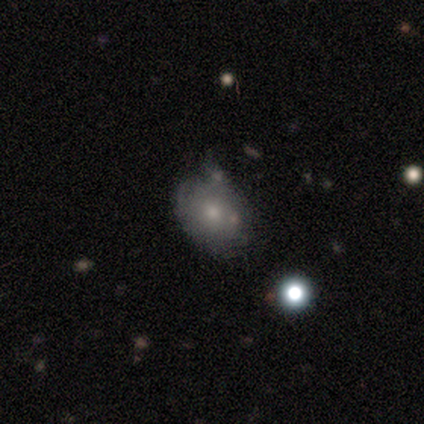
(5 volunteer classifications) Volunteers were most divided on "smooth or featured": smooth: 60%, featured or disk: 40%, star or artifact: 0%. More confident: how rounded — round (67%); merging — none (60%).